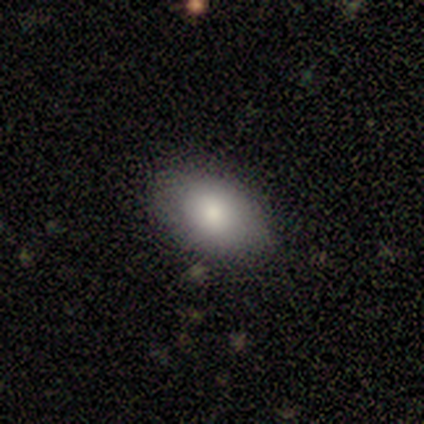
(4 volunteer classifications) Morphology: type=smooth (75%); roundness=in between (67%); merging=none (100%).